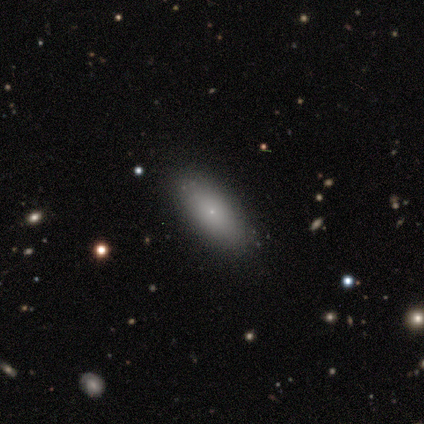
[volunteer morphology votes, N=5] Smooth or featured: smooth — 80% (featured or disk — 20%)
How rounded: in between — 50% (tied with cigar-shaped — 50%)
Merging: none — 100%